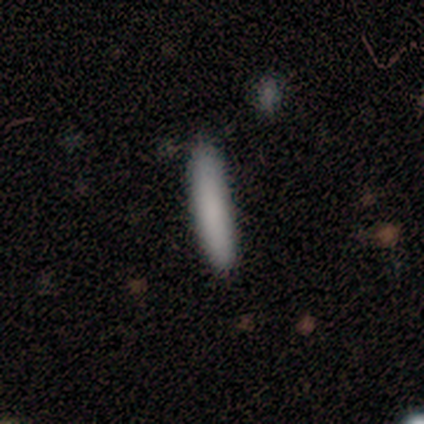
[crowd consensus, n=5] A smooth galaxy with no disk features (80%) that is cigar-shaped (100%). Merging: none (60%).